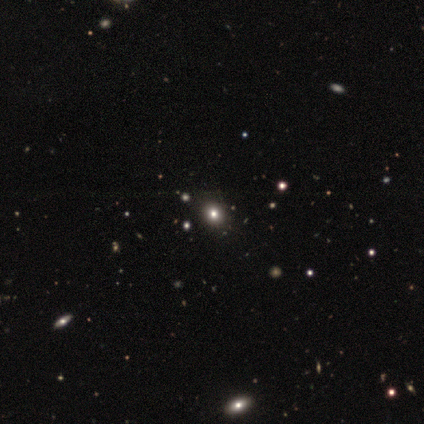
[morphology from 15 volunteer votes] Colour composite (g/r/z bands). It shows a smooth galaxy with no disk features (73%) that is round (73%). Merging: none (92%).